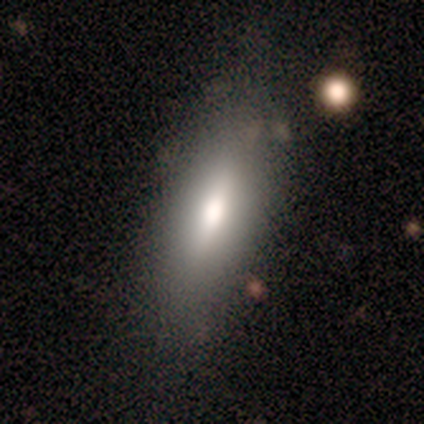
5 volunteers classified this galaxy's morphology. featured or disk 60%, smooth 40%, star or artifact 0%. Down the decision tree: edge-on disk — yes (67%); edge-on bulge — rounded (100%); merging — none (80%).